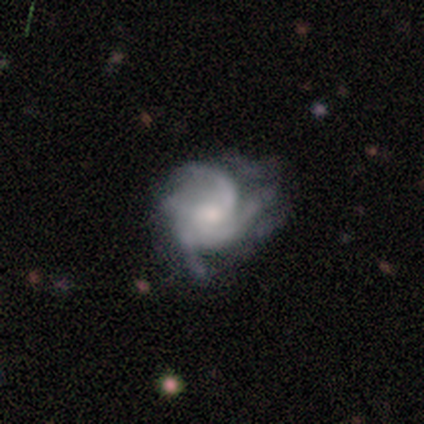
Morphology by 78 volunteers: This appears to be a featured or disk galaxy (85%) with no bar (83%), medium (47%) spiral arms (91%) and a small central bulge (42%). Merging: none (31%).